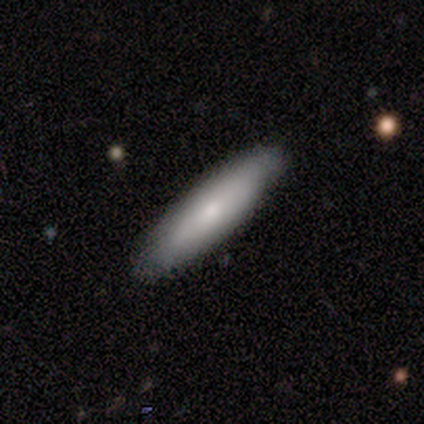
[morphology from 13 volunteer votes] Smooth or featured: smooth — 69% (featured or disk — 23%)
How rounded: cigar-shaped — 67% (in between — 33%)
Merging: none — 100%